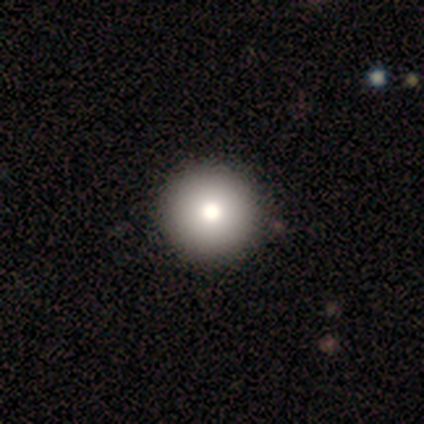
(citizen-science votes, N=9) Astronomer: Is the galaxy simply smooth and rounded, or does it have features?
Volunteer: smooth — 67%.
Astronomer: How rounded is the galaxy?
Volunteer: round — 100%.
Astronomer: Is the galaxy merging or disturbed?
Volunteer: none — 100%.